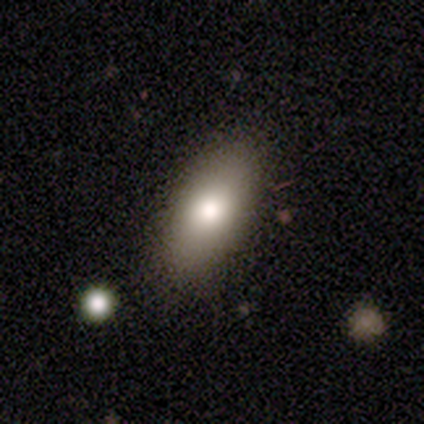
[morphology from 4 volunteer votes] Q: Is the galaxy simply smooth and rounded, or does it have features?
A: smooth — 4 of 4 (100%).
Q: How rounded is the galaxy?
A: in between — 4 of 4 (100%).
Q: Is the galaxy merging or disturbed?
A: none — 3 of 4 (75%).